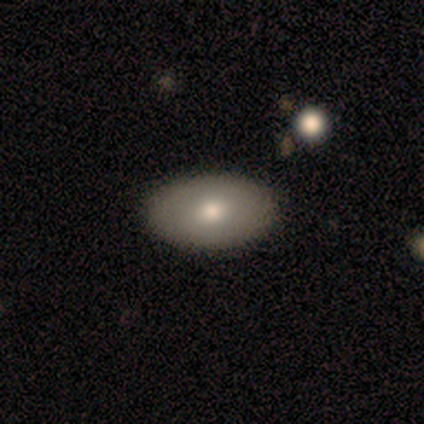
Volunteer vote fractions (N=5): Smooth or featured?
  - smooth: 80% *
  - star or artifact: 20%
  - featured or disk: 0%
How rounded?
  - in between: 75% *
  - cigar-shaped: 25%
  - round: 0%
Merging?
  - none: 75% *
  - minor disturbance: 25%
  - major disturbance: 0%
  - merger: 0%